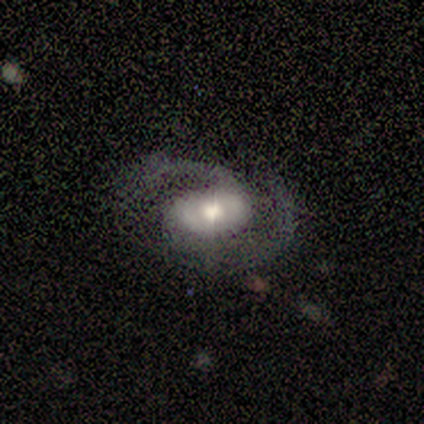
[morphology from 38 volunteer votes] smooth_or_featured: featured or disk (p=0.82) [alt: smooth p=0.13]
disk_edge_on: no (p=0.97) [alt: yes p=0.03]
bar: no (p=0.70) [alt: weak p=0.20]
has_spiral_arms: yes (p=0.97) [alt: no p=0.03]
spiral_winding: medium (p=0.72) [alt: tight p=0.21]
spiral_arm_count: 2 (p=1.00)
bulge_size: moderate (p=0.50) [alt: large p=0.27]
merging: none (p=0.78) [alt: major disturbance p=0.14]